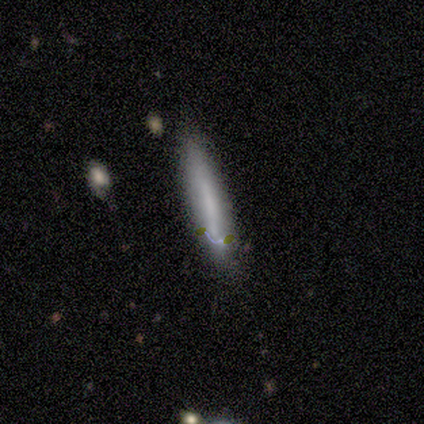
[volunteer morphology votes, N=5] This is clearly a smooth galaxy (80%). How rounded: clearly cigar-shaped (100%). Merging: clearly none (80%).